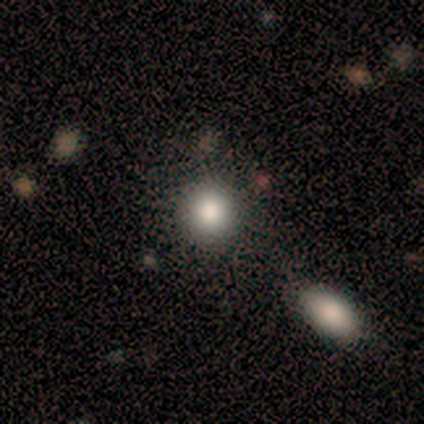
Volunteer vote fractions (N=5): Smooth or featured? smooth (80%)
How rounded? round (100%)
Merging? none (100%)